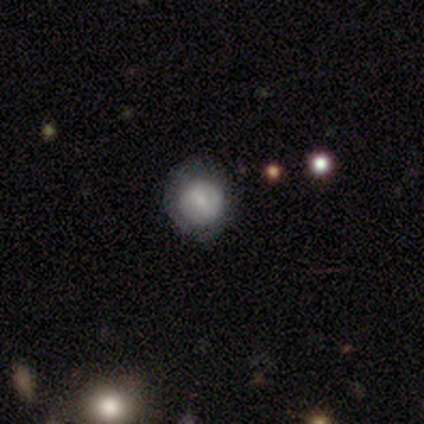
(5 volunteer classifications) Smooth or featured: smooth — 60% (featured or disk — 40%)
How rounded: round — 100%
Merging: minor disturbance — 60% (none — 40%)